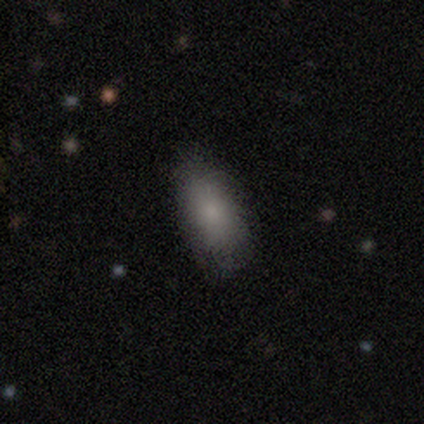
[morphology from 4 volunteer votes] Overall: smooth (50%; featured or disk 25%). How rounded: in between (100%). Merging: none (67%; minor disturbance 33%).